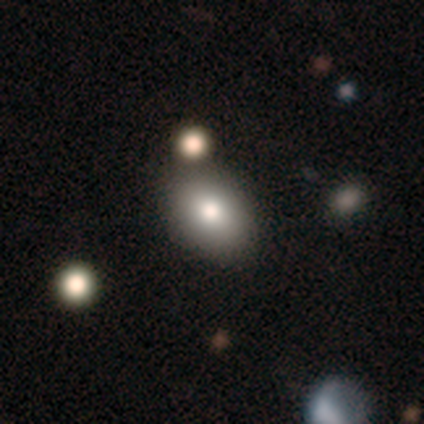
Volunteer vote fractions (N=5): This is clearly a smooth galaxy (80%). How rounded: likely in between (75%). Merging: likely none (60%).